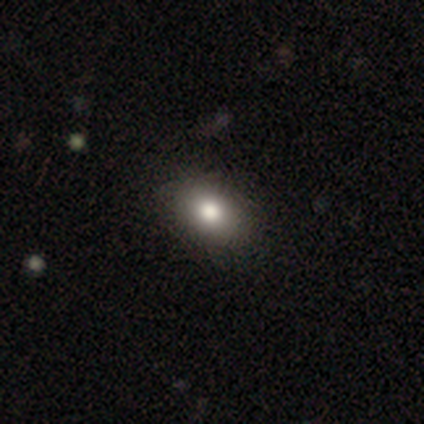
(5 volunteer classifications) Smooth or featured? smooth (100%)
How rounded? in between (60%)
Merging? none (80%)